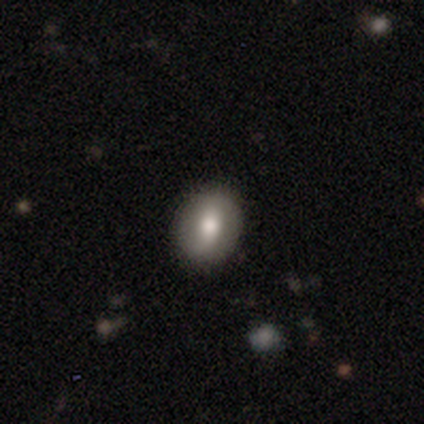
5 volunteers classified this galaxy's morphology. Smooth or featured? 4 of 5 (80%) said smooth. How rounded? 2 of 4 (50%, tied with in between) said round. Merging? 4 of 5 (80%) said none.